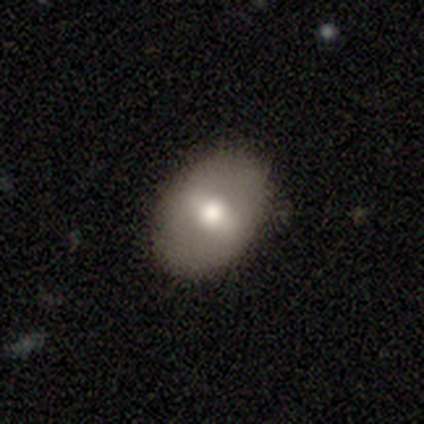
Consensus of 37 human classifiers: Morphology: type=smooth (57%); roundness=in between (71%); merging=none (86%).